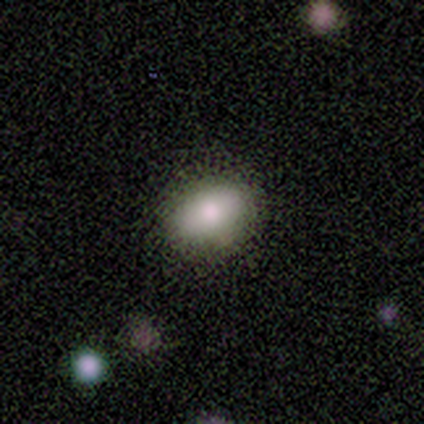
This appears to be a smooth galaxy with no disk features (100%) that is in between round and cigar-shaped (75%). Merging: none (100%).